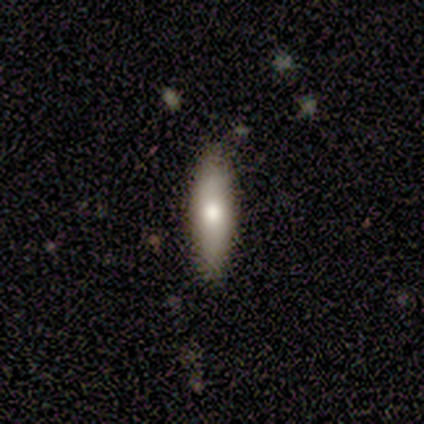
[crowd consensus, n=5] Smooth or featured?
  - smooth: 100% *
  - featured or disk: 0%
  - star or artifact: 0%
How rounded?
  - cigar-shaped: 60% *
  - in between: 40%
  - round: 0%
Merging?
  - none: 100% *
  - minor disturbance: 0%
  - major disturbance: 0%
  - merger: 0%